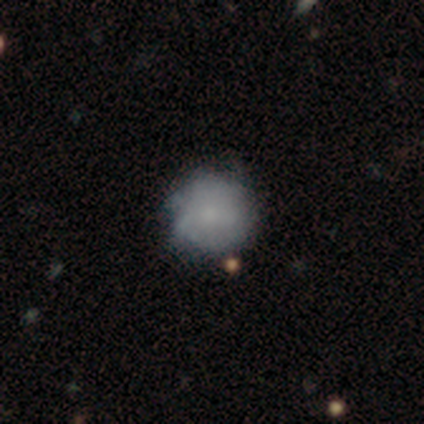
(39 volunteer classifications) This appears to be a smooth galaxy with no disk features (51%) that is round (90%). Merging: none (78%).